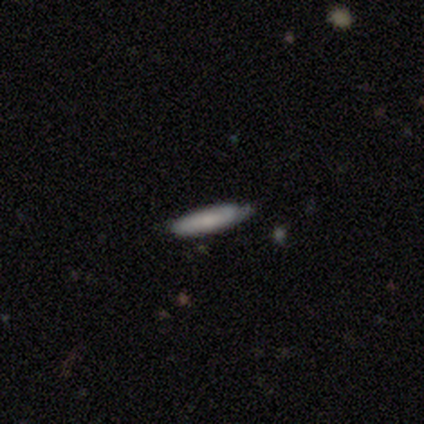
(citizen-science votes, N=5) Smooth or featured?
  - smooth: 80% *
  - featured or disk: 20%
  - star or artifact: 0%
How rounded?
  - cigar-shaped: 75% *
  - in between: 25%
  - round: 0%
Merging?
  - none: 80% *
  - minor disturbance: 20%
  - major disturbance: 0%
  - merger: 0%